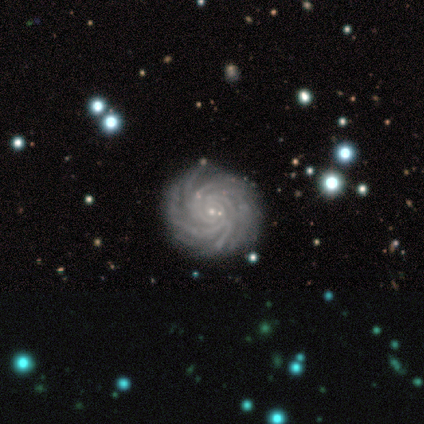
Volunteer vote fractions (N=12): A featured or disk galaxy (100%) with no bar (100%), more than 4 (67%) tight (83%) spiral arms (100%) and a small central bulge (83%).

Vote fractions:
- Smooth or featured? featured or disk: 100% / smooth: 0% / star or artifact: 0%
- Edge-on disk? no: 100% / yes: 0%
- Bar? no: 100% / strong: 0% / weak: 0%
- Spiral arms? yes: 100% / no: 0%
- Spiral winding? tight: 83% / medium: 17% / loose: 0%
- Spiral arm count? more than 4: 67% / 4: 17% / 2: 8% / can't tell: 8% / 1: 0% / 3: 0%
- Bulge size? small: 83% / moderate: 8% / none: 8% / dominant: 0% / large: 0%
- Merging? none: 83% / minor disturbance: 8% / major disturbance: 8% / merger: 0%